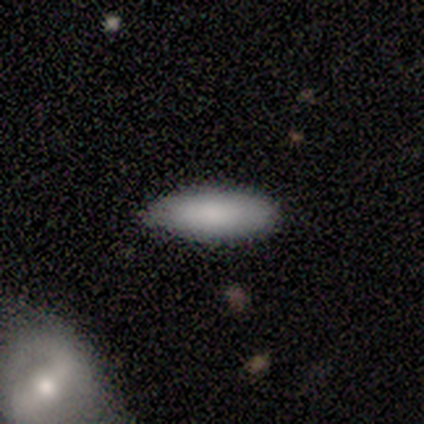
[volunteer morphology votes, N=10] smooth_or_featured: smooth (p=0.90) [alt: star or artifact p=0.10]
how_rounded: in between (p=0.67) [alt: cigar-shaped p=0.33]
merging: none (p=0.89) [alt: minor disturbance p=0.11]